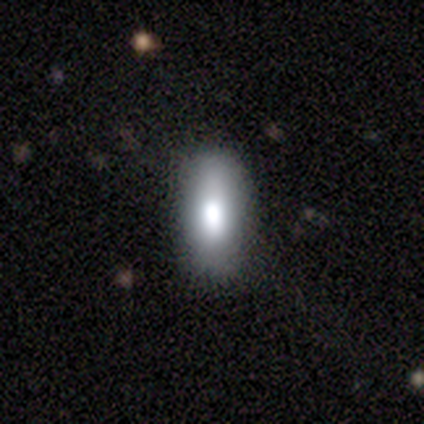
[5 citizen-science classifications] Volunteers were most divided on "smooth or featured": smooth: 60%, featured or disk: 40%, star or artifact: 0%. More confident: merging — none (80%); how rounded — in between (67%).